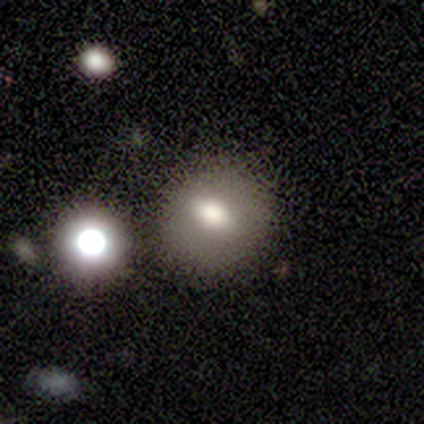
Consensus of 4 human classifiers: This appears to be a smooth galaxy with no disk features (50%, tied with featured or disk) that is round (50%, tied with in between). Merging: none (75%).